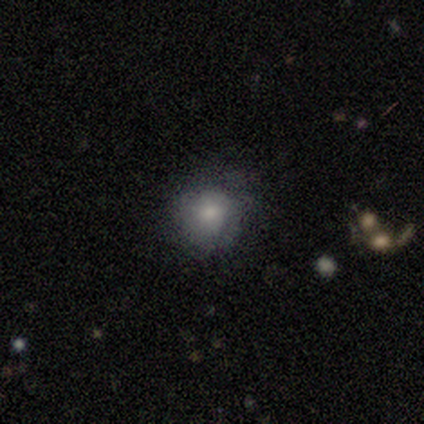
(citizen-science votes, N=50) smooth 58%, featured or disk 28%, star or artifact 14%. Down the decision tree: how rounded — round (90%); merging — none (67%).